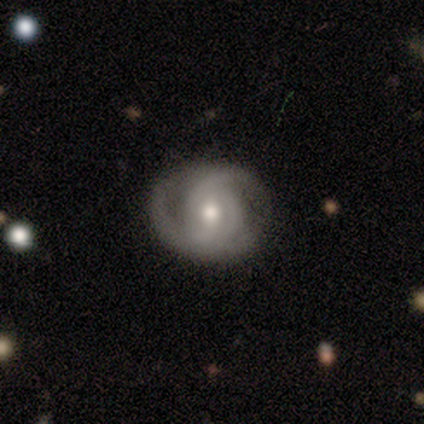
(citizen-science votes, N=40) Smooth or featured? 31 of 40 (78%) said featured or disk. Edge-on disk? 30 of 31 (97%) said no. Bar? 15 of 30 (50%) said no. Spiral arms? 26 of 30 (87%) said yes. Spiral winding? 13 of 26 (50%) said tight. Spiral arm count? 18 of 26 (69%) said 2. Bulge size? 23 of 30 (77%) said moderate. Merging? 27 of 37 (73%) said none.